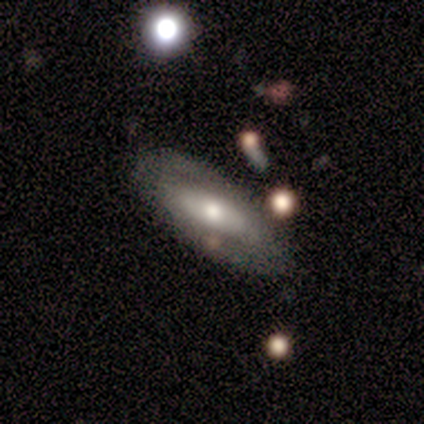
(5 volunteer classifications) This appears to be a featured or disk galaxy (80%) with no bar (67%), no spiral arms (100%) and a moderate central bulge (67%). Merging: none (60%).